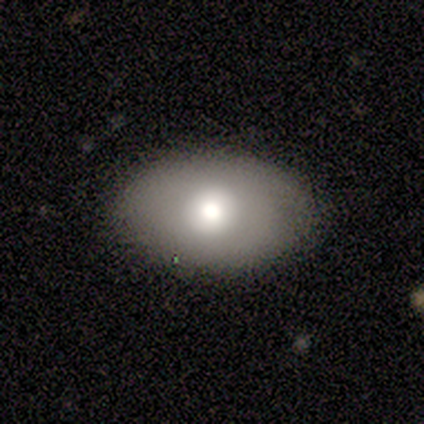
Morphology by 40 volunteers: A smooth galaxy with no disk features (80%) that is in between round and cigar-shaped (75%).

Vote fractions:
- Smooth or featured? smooth: 80% / featured or disk: 15% / star or artifact: 5%
- How rounded? in between: 75% / round: 19% / cigar-shaped: 6%
- Merging? none: 76% / minor disturbance: 16% / merger: 5% / major disturbance: 3%